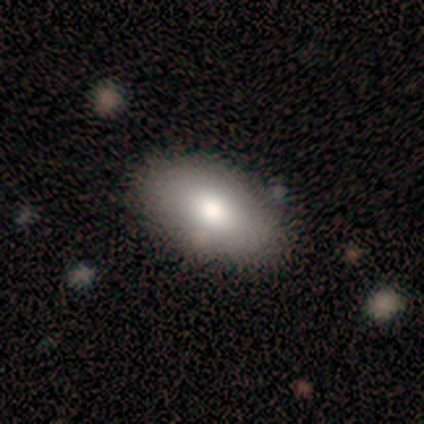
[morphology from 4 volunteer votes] Overall: smooth (75%). How rounded: in between (100%). Merging: none (100%).